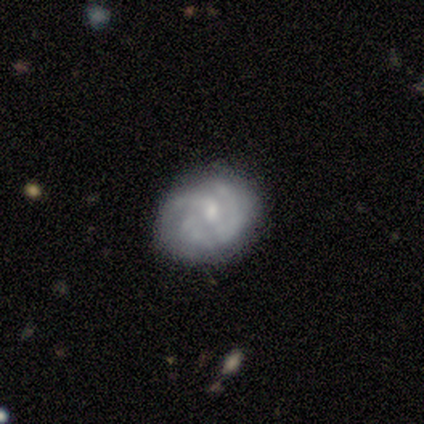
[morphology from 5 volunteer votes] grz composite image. It shows a featured or disk galaxy (100%) with a weak bar (60%), 3 (60%) tight (80%) spiral arms (100%) and a moderate central bulge (40%, tied with none). Merging: none (60%).